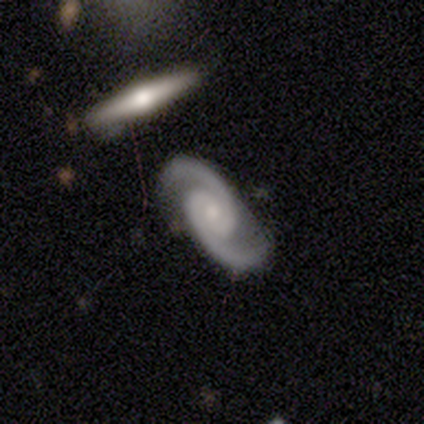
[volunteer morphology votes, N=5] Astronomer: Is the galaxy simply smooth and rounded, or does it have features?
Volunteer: featured or disk — 100%.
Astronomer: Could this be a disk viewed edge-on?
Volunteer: no — 100%.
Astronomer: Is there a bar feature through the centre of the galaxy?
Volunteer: no — 80%.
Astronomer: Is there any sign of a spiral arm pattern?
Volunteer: yes — 100%.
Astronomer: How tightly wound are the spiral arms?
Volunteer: tight — 80%.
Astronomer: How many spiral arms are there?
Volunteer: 2 — 100%.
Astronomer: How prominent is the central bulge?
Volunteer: moderate — 80%.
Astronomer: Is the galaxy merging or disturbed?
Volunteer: none — 100%.